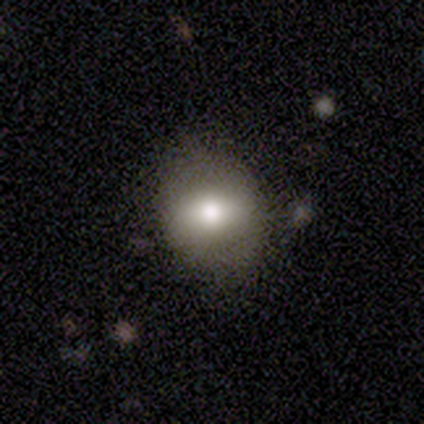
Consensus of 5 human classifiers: Q: Smooth or featured?
A: smooth (60%); runner-up: featured or disk (20%)
Q: How rounded?
A: round (67%); runner-up: in between (33%)
Q: Merging?
A: none (100%)